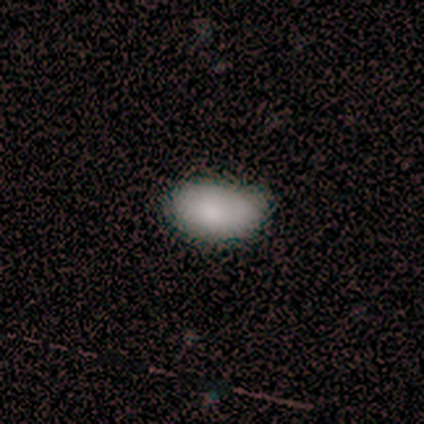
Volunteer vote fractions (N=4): Morphology: type=smooth (75%); roundness=in between (100%); merging=none (67%).